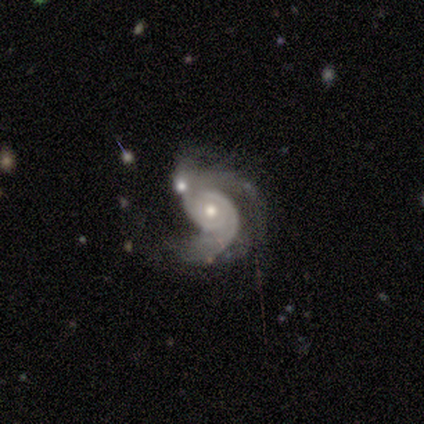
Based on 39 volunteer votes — Smooth or featured? featured or disk (97%)
Edge-on disk? no (100%)
Bar? no (58%)
Spiral arms? yes (95%)
Spiral winding? medium (36%)
Spiral arm count? 2 (58%)
Bulge size? moderate (58%)
Merging? merger (36%)